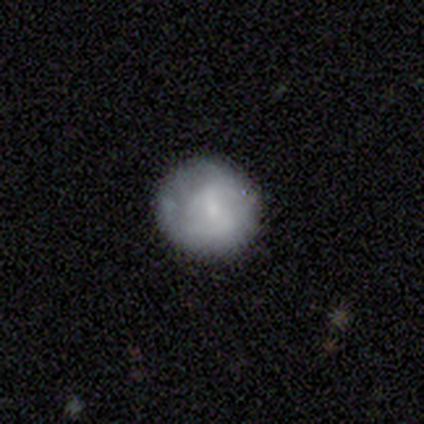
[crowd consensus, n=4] Morphology: type=smooth (50%, tied with featured or disk); roundness=round (100%); merging=none (75%).